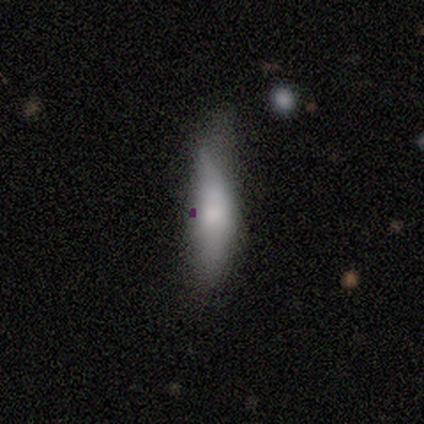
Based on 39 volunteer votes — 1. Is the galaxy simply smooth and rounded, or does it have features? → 79% smooth, 13% featured or disk, 8% star or artifact.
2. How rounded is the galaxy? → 61% cigar-shaped, 39% in between, 0% round.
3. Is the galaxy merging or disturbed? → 47% minor disturbance, 31% none, 22% major disturbance, 0% merger.